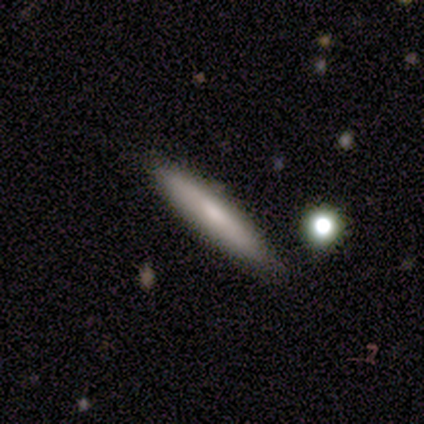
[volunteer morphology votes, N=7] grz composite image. It shows a smooth galaxy with no disk features (86%) that is cigar-shaped (100%). Merging: none (86%).